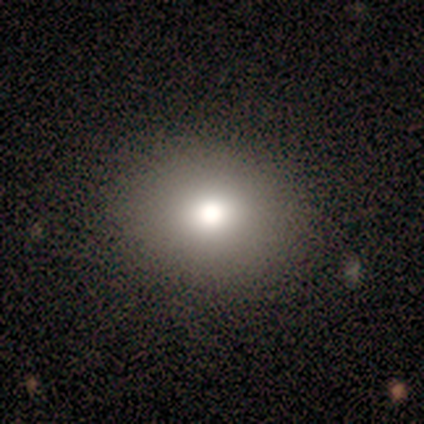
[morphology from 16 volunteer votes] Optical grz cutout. It shows a smooth galaxy with no disk features (75%) that is round (50%, tied with in between). Merging: none (100%).